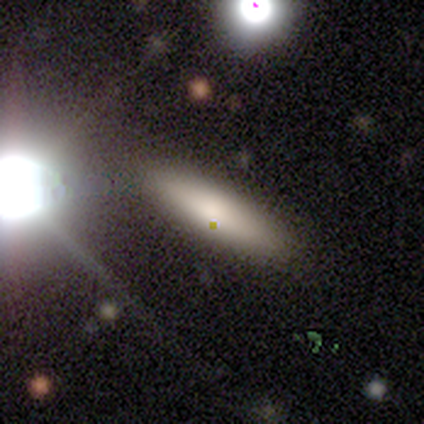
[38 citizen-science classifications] smooth-or-featured: smooth: 74% | featured or disk: 16% | star or artifact: 11%
  how-rounded: cigar-shaped: 61% | in between: 39% | round: 0%
  merging: none: 88% | minor disturbance: 9% | major disturbance: 3% | merger: 0%